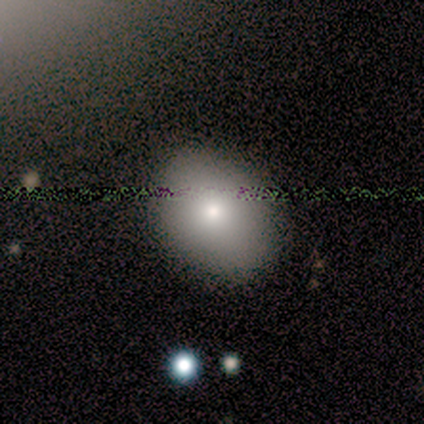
smooth_or_featured: smooth (p=0.78) [alt: featured or disk p=0.11]
how_rounded: in between (p=0.71) [alt: round p=0.29]
merging: none (p=0.88) [alt: major disturbance p=0.12]